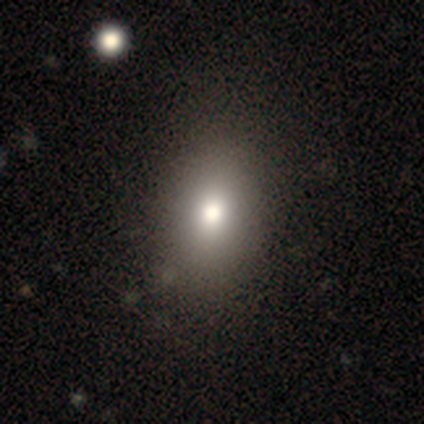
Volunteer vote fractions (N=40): Volunteers were most divided on "how rounded": in between: 69%, round: 31%, cigar-shaped: 0%. More confident: smooth or featured — smooth (88%); merging — none (66%).